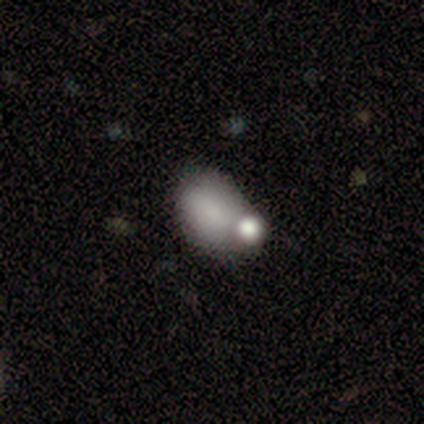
This appears to be a smooth galaxy with no disk features (81%) that is in between round and cigar-shaped (92%). Merging: merger (53%).